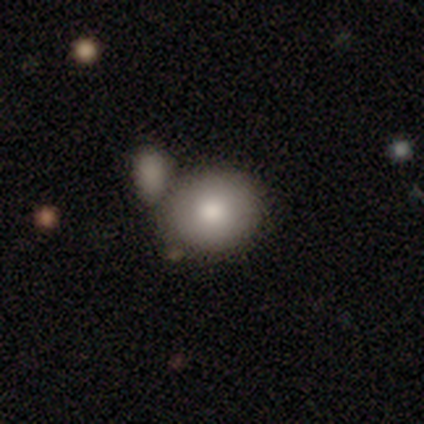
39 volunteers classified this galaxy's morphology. A smooth galaxy with no disk features (85%) that is round (70%).

Vote fractions:
- Smooth or featured? smooth: 85% / featured or disk: 13% / star or artifact: 3%
- How rounded? round: 70% / in between: 30% / cigar-shaped: 0%
- Merging? merger: 53% / none: 29% / minor disturbance: 8% / major disturbance: 3%